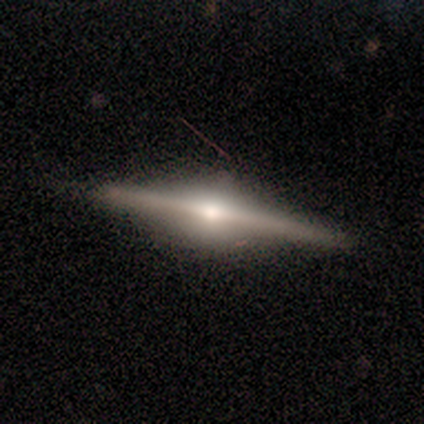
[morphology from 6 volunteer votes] Volunteers were most divided on "smooth or featured": featured or disk: 83%, smooth: 17%, star or artifact: 0%. More confident: edge-on disk — yes (100%); edge-on bulge — rounded (100%); merging — none (100%).